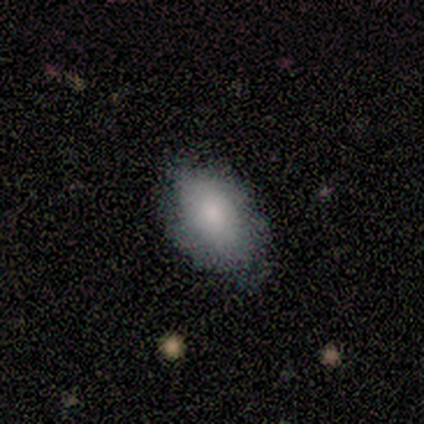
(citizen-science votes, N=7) A smooth galaxy with no disk features (86%) that is in between round and cigar-shaped (83%). Merging: none (50%, tied with minor disturbance).